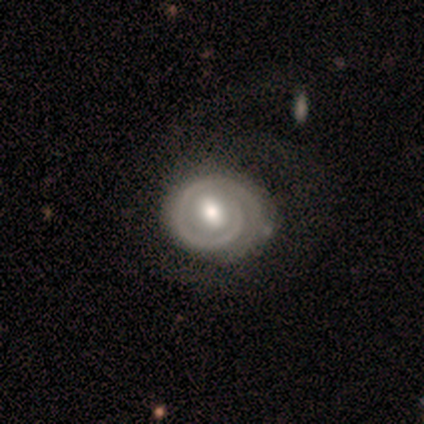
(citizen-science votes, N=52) This is clearly a featured or disk galaxy (87%). It is clearly not viewed edge-on (96%). Bar: possibly weak (58%). Spiral arm pattern: clearly yes (93%). Spiral arm count: possibly 1 (50%). Spiral winding: likely tight (75%). Central bulge: likely moderate (74%). Merging: likely none (70%).